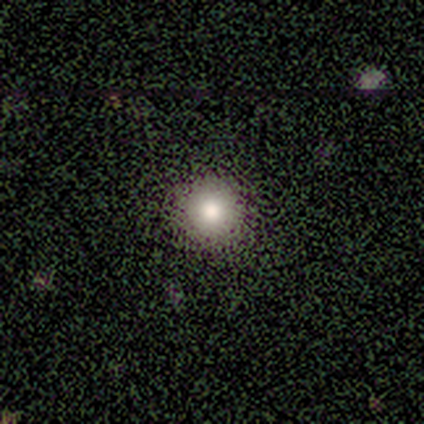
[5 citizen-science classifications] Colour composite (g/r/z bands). It shows a smooth galaxy with no disk features (80%) that is round (100%). Merging: none (100%).